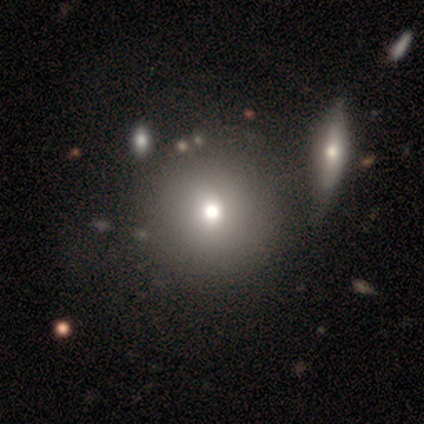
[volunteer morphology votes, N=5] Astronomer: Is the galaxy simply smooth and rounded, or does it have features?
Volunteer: smooth — 60%.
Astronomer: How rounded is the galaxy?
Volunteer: round — 67%.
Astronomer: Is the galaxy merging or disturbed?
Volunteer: none — 50%.